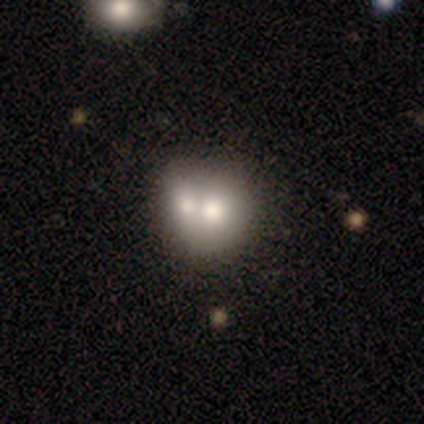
smooth 67%, featured or disk 33%, star or artifact 0%. Down the decision tree: how rounded — round (50%, tied with in between); merging — merger (83%).